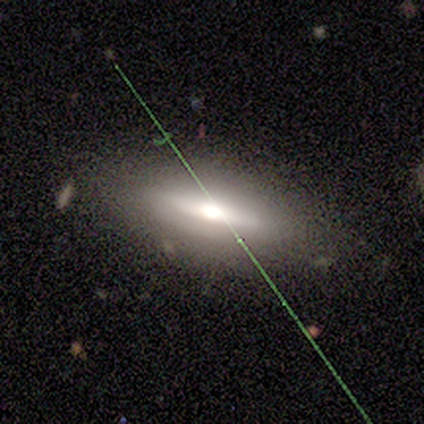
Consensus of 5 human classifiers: This is likely a featured or disk galaxy (60%). It is likely viewed edge-on (67%). Edge-on bulge: clearly rounded (100%). Merging: likely none (75%).